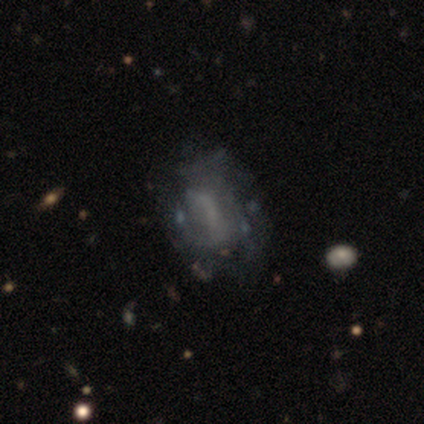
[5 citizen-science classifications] Morphology: type=smooth (60%); roundness=in between (100%); merging=none (40%, tied with major disturbance).